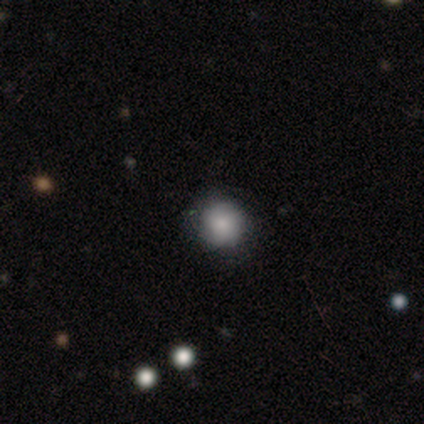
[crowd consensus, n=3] Smooth or featured?
  - smooth: 67% *
  - featured or disk: 33%
  - star or artifact: 0%
How rounded?
  - round: 100% *
  - in between: 0%
  - cigar-shaped: 0%
Merging?
  - none: 100% *
  - minor disturbance: 0%
  - major disturbance: 0%
  - merger: 0%